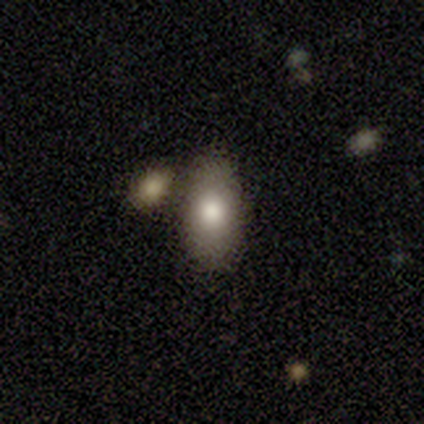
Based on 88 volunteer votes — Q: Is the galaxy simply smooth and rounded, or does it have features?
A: smooth — 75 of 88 (85%).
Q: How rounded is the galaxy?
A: in between — 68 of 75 (91%).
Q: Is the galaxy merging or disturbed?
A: none — 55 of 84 (65%).